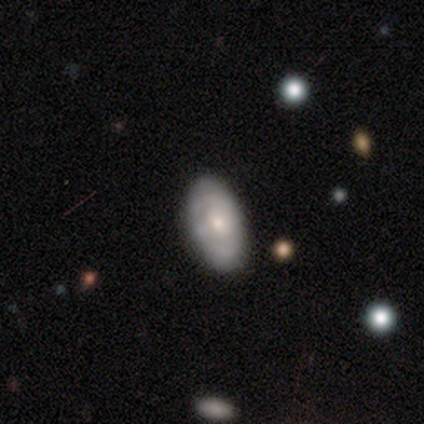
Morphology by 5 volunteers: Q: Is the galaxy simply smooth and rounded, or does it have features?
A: featured or disk — 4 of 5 (80%).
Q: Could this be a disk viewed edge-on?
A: no — 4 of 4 (100%).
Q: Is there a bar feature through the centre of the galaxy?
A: no — 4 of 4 (100%).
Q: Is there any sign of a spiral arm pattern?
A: no — 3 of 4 (75%).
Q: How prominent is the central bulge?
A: moderate — 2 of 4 (50%, tied with small).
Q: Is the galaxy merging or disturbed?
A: none — 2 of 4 (50%, tied with minor disturbance).